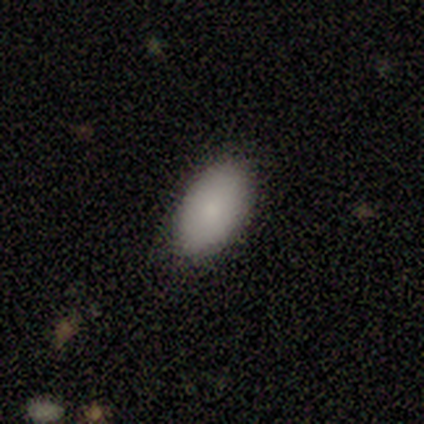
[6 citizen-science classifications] smooth 83%, star or artifact 17%, featured or disk 0%. Down the decision tree: how rounded — in between (100%); merging — none (80%).